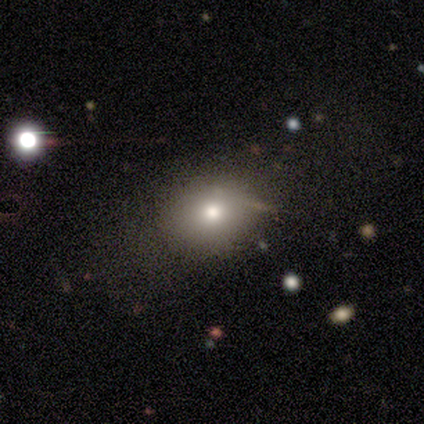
Smooth or featured: smooth — 80% (featured or disk — 10%)
How rounded: in between — 59% (round — 41%)
Merging: none — 46% (major disturbance — 7%)